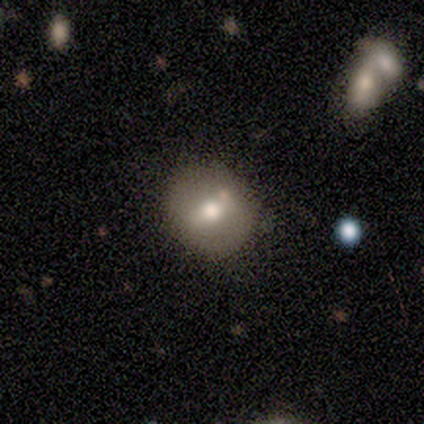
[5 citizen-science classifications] Volunteers were most divided on "merging": none: 60%, minor disturbance: 40%, major disturbance: 0%, merger: 0%. More confident: how rounded — round (100%); smooth or featured — smooth (80%).